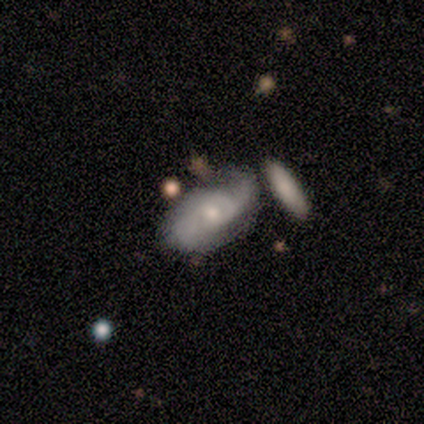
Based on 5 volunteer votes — Morphology: type=featured or disk (60%); edge-on=no (100%); bar=no (67%); spiral arms=yes (100%); winding=medium (67%); arm count=2 (67%); bulge=moderate (67%); merging=minor disturbance (40%).